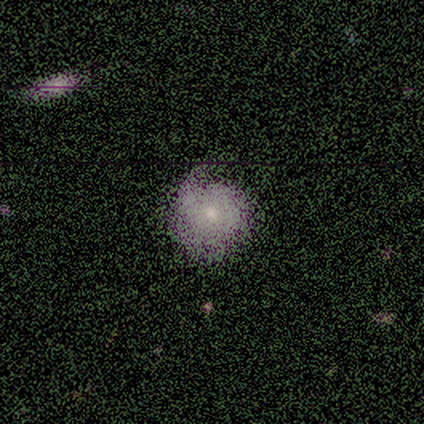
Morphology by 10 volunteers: This is likely a smooth galaxy (70%). How rounded: clearly round (86%). Merging: likely none (60%).